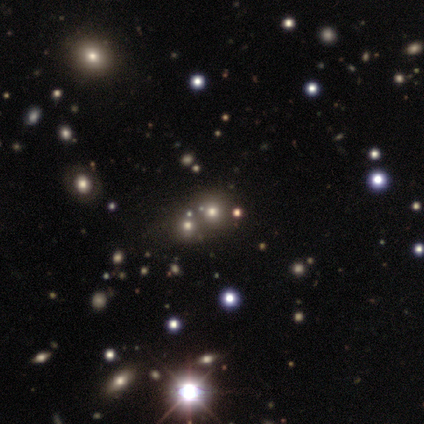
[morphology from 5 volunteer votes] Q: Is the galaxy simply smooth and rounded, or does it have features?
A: smooth — 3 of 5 (60%).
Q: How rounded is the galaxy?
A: round — 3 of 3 (100%).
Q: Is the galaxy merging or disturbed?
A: none — 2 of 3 (67%).